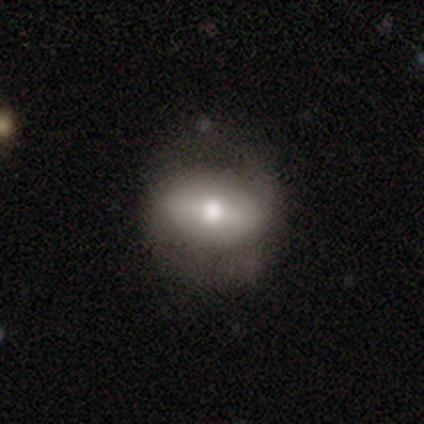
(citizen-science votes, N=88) Volunteers were most divided on "smooth or featured": smooth: 50%, featured or disk: 43%, star or artifact: 7%. More confident: merging — none (72%); how rounded — in between (59%).